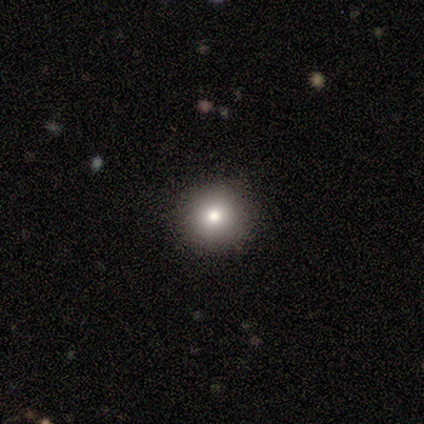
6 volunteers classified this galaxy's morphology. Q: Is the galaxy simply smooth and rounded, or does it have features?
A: smooth — 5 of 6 (83%).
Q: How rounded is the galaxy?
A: round — 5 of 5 (100%).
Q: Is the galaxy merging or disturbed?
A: none — 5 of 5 (100%).